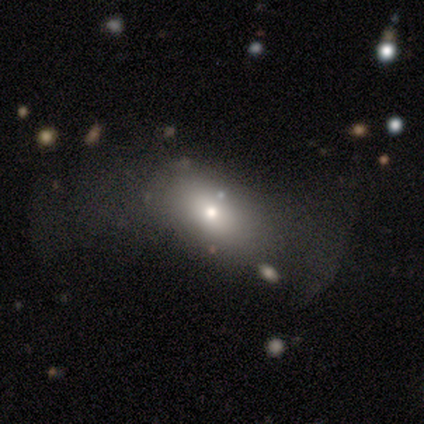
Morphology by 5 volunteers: Smooth or featured: smooth — 60% (star or artifact — 40%)
How rounded: in between — 100%
Merging: none — 67% (major disturbance — 33%)